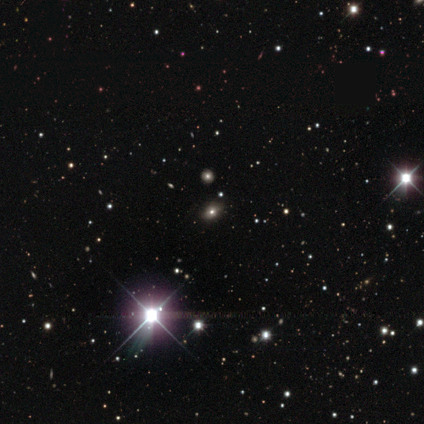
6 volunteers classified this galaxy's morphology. Overall: star or artifact (100%).